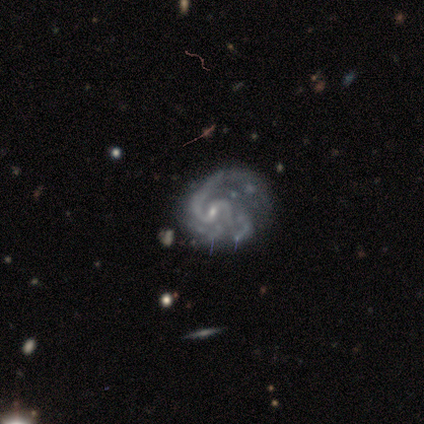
Smooth or featured? featured or disk (100%)
Edge-on disk? no (100%)
Bar? weak (43%, tied with no)
Spiral arms? yes (100%)
Spiral winding? medium (57%)
Spiral arm count? 2 (100%)
Bulge size? small (86%)
Merging? major disturbance (57%)